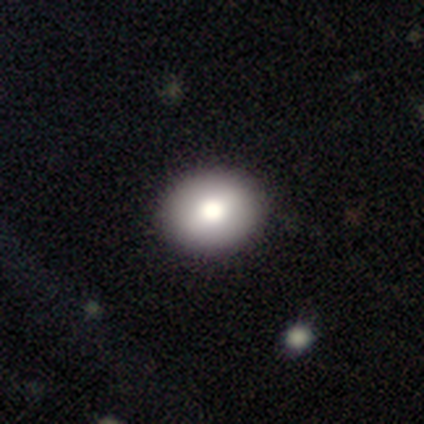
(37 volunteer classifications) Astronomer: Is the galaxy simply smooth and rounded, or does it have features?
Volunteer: smooth — 84%.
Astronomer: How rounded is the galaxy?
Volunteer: round — 52% (runner-up: in between, 45%).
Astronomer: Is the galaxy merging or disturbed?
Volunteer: none — 83%.